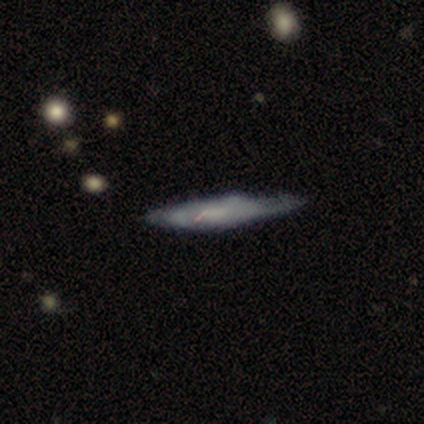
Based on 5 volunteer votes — smooth_or_featured: smooth (p=0.80) [alt: featured or disk p=0.20]
how_rounded: cigar-shaped (p=1.00)
merging: minor disturbance (p=0.60) [alt: none p=0.40]